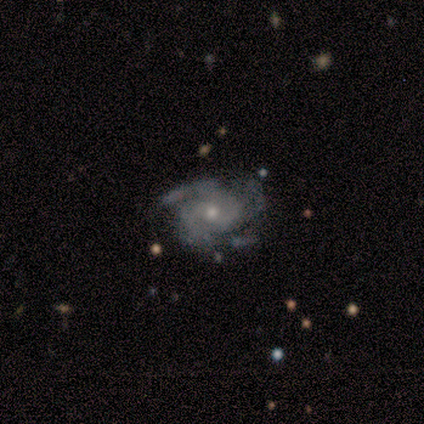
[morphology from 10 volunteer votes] smooth_or_featured: featured or disk (p=0.70) [alt: smooth p=0.20]
disk_edge_on: no (p=1.00)
bar: no (p=0.86) [alt: weak p=0.14]
has_spiral_arms: yes (p=1.00)
spiral_winding: medium (p=0.71) [alt: tight p=0.29]
spiral_arm_count: 3 (p=0.57) [alt: 2 p=0.14]
bulge_size: moderate (p=0.57) [alt: small p=0.43]
merging: none (p=0.56) [alt: minor disturbance p=0.44]